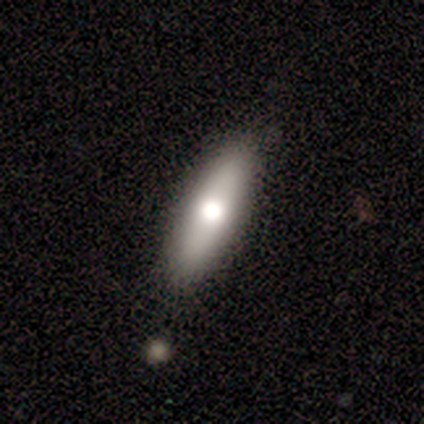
Smooth or featured: smooth — 60% (featured or disk — 40%)
How rounded: in between — 67% (cigar-shaped — 33%)
Merging: none — 80% (minor disturbance — 20%)